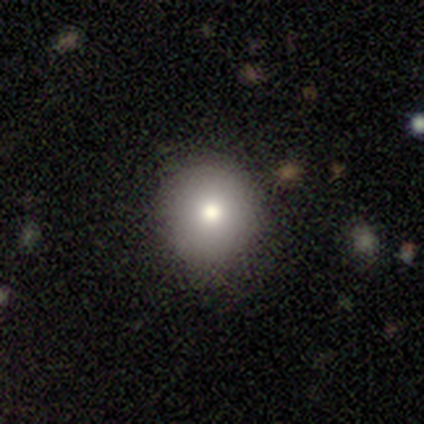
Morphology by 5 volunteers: Smooth or featured: smooth — 80% (star or artifact — 20%)
How rounded: round — 100%
Merging: none — 75% (minor disturbance — 25%)